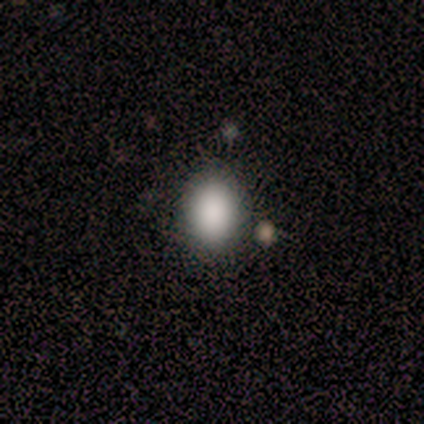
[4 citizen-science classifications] This appears to be a smooth galaxy with no disk features (50%, tied with featured or disk) that is round (100%). Merging: none (100%).